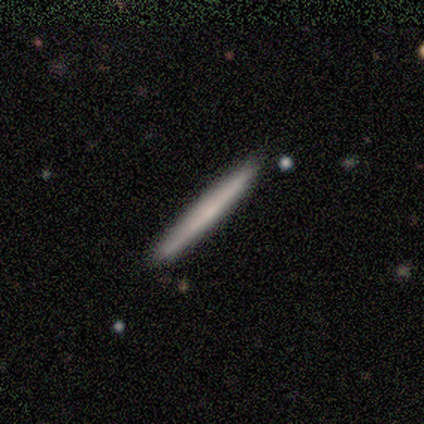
Volunteers were most divided on "smooth or featured": featured or disk: 60%, smooth: 40%, star or artifact: 0%. More confident: edge-on disk — yes (100%); edge-on bulge — none (100%); merging — none (60%).